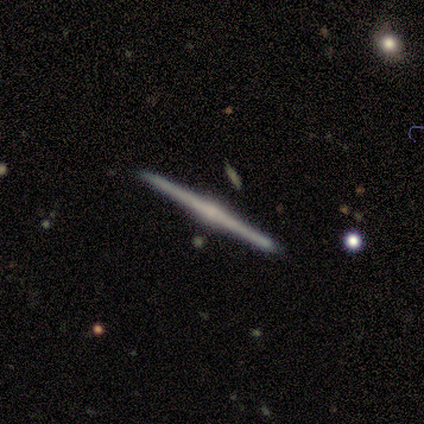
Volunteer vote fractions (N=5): This appears to be a featured or disk galaxy (100%) viewed edge-on (100%) with a rounded central bulge (100%). Merging: none (80%).